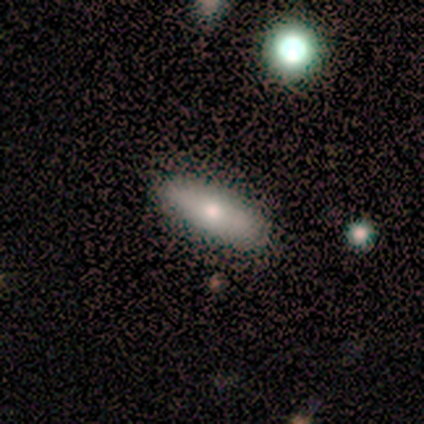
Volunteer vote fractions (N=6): Q: Smooth or featured?
A: smooth (50%); runner-up: featured or disk (33%)
Q: How rounded?
A: cigar-shaped (67%); runner-up: in between (33%)
Q: Merging?
A: none (80%); runner-up: minor disturbance (20%)